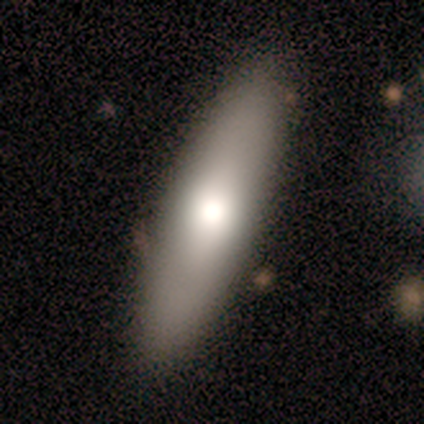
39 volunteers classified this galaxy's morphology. smooth_or_featured: smooth (p=0.64) [alt: featured or disk p=0.28]
how_rounded: cigar-shaped (p=0.52) [alt: in between p=0.48]
merging: none (p=0.72)